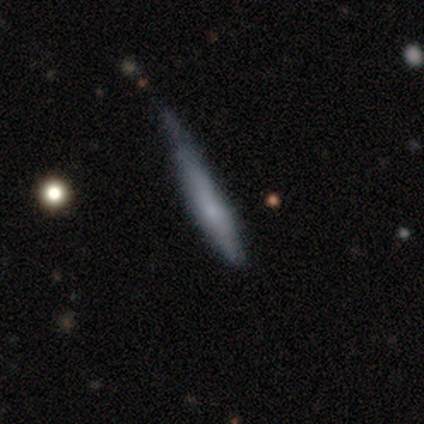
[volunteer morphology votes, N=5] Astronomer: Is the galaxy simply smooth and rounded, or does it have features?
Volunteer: smooth — 60% (runner-up: featured or disk, 40%).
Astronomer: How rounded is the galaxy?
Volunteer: cigar-shaped — 100%.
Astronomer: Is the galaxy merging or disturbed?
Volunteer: none — 40%, tied with minor disturbance at 40%.